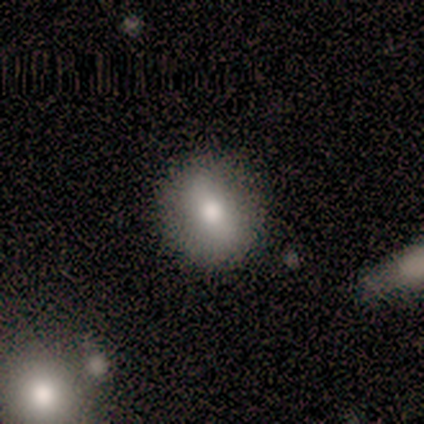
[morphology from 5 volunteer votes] smooth-or-featured: smooth: 60% | featured or disk: 20% | star or artifact: 20%
  how-rounded: round: 100% | in between: 0% | cigar-shaped: 0%
  merging: none: 100% | minor disturbance: 0% | major disturbance: 0% | merger: 0%